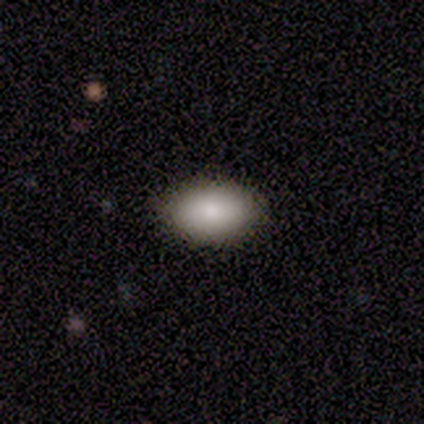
Smooth or featured? smooth (50%)
How rounded? in between (100%)
Merging? none (67%)